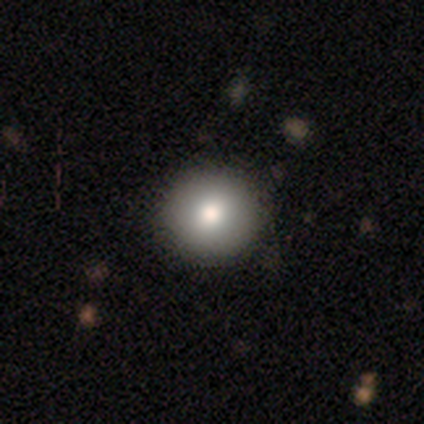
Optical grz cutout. It shows a smooth galaxy with no disk features (79%) that is round (94%). Merging: none (97%).